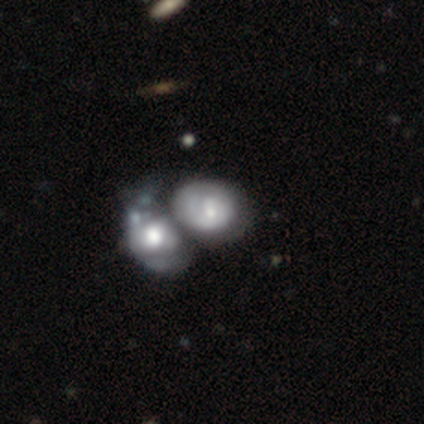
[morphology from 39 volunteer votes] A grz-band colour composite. It shows a featured or disk galaxy (62%) with no bar (50%), 1 (47%) tight (59%) spiral arms (71%) and a small central bulge (42%). Merging: merger (75%).